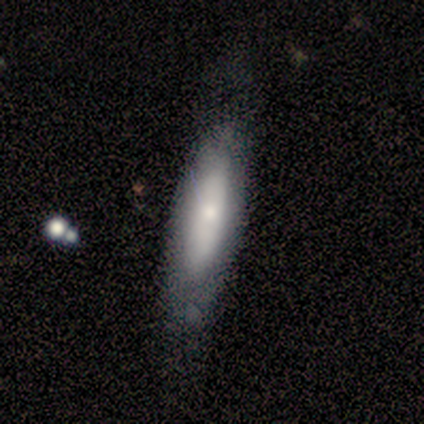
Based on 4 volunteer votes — Smooth or featured? smooth (100%)
How rounded? in between (75%)
Merging? none (50%)